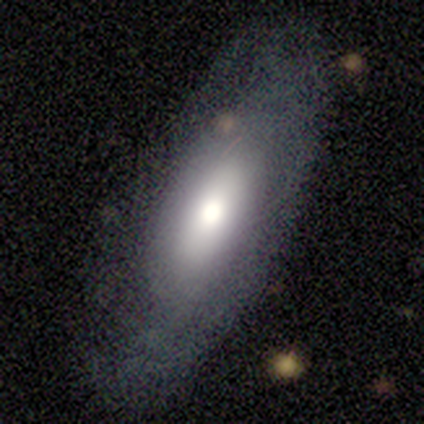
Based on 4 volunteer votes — This appears to be a smooth galaxy with no disk features (75%) that is in between round and cigar-shaped (67%). Merging: none (100%).